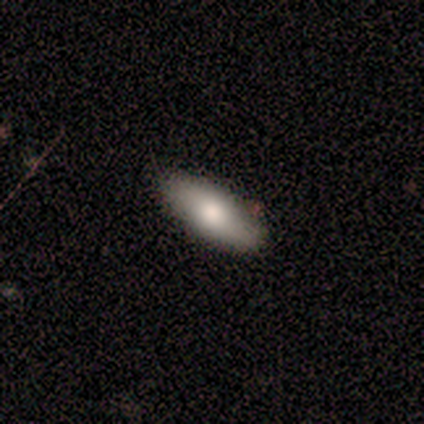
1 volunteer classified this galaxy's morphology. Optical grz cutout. It shows a smooth galaxy with no disk features (100%) that is in between round and cigar-shaped (100%). Merging: none (100%).